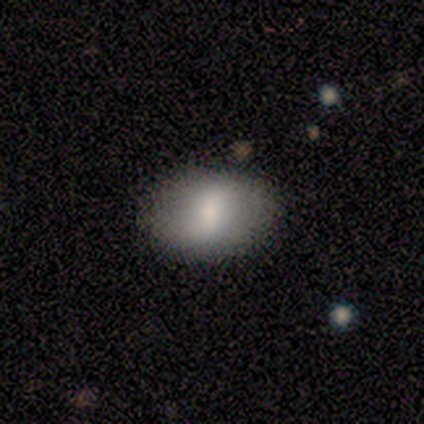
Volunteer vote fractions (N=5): Q: Smooth or featured?
A: smooth (60%); runner-up: featured or disk (20%)
Q: How rounded?
A: in between (100%)
Q: Merging?
A: none (100%)